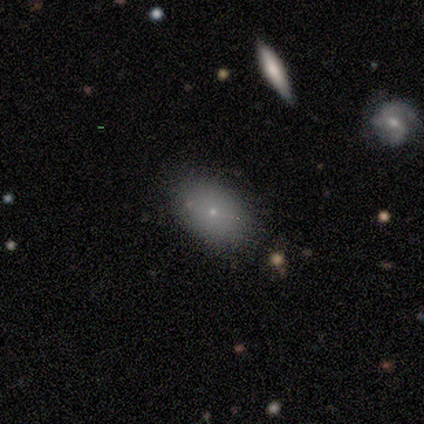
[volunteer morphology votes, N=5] type=smooth (60%); roundness=in between (100%); merging=none (75%).